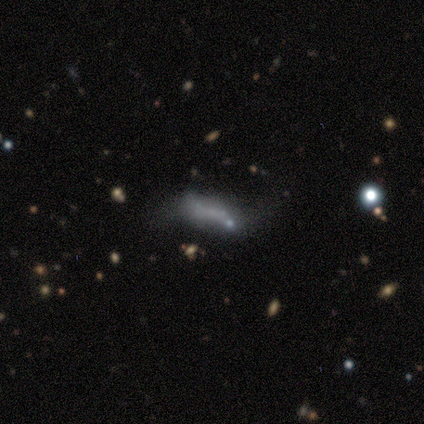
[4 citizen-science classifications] This appears to be a star or artifact, not a galaxy (50%).